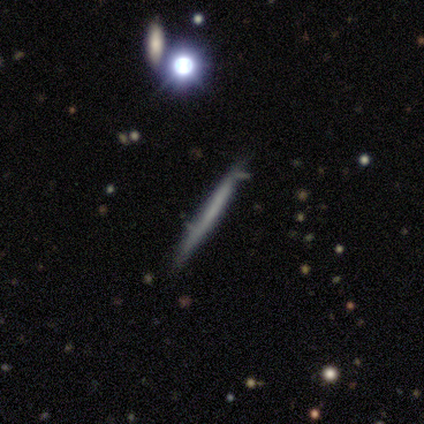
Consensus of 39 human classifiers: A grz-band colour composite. It shows a smooth galaxy with no disk features (54%) that is cigar-shaped (95%). Merging: none (74%).